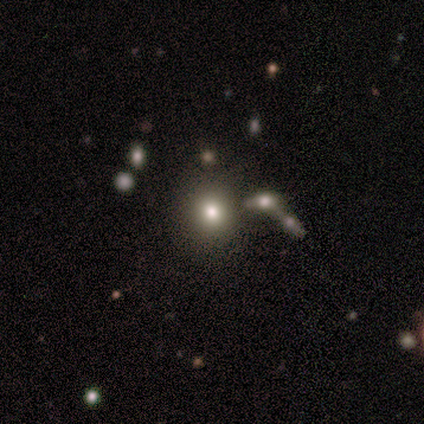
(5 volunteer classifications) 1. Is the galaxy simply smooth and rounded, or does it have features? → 80% smooth, 20% star or artifact, 0% featured or disk.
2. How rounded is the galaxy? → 75% round, 25% in between, 0% cigar-shaped.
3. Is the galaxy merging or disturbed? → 75% minor disturbance, 25% none, 0% major disturbance, 0% merger.